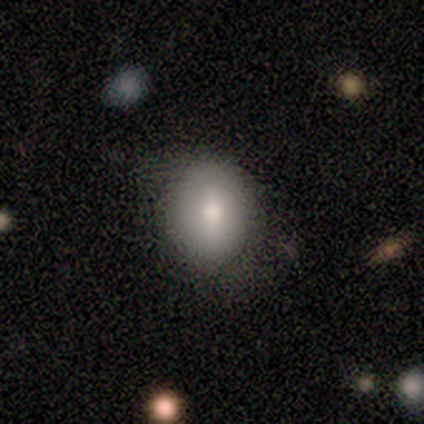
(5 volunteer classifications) smooth_or_featured: smooth (p=0.80) [alt: featured or disk p=0.20]
how_rounded: round (p=0.50) [tied with: in between p=0.50]
merging: none (p=0.60) [alt: minor disturbance p=0.40]